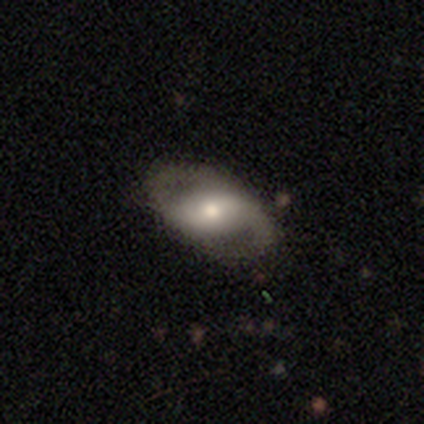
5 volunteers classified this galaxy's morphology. Smooth or featured? 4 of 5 (80%) said featured or disk. Edge-on disk? 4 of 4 (100%) said no. Bar? 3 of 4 (75%) said strong. Spiral arms? 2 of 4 (50%, tied with no) said yes. Spiral winding? 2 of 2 (100%) said medium. Spiral arm count? 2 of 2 (100%) said 2. Bulge size? 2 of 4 (50%) said large. Merging? 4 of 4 (100%) said none.